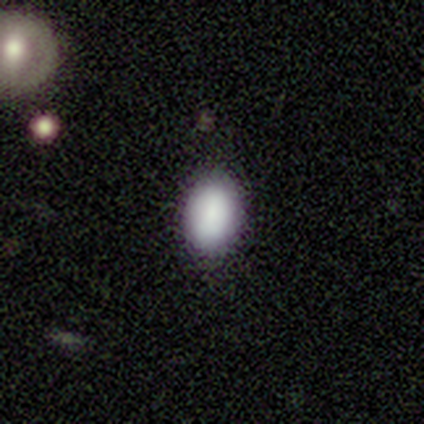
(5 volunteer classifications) smooth-or-featured: smooth: 60% | featured or disk: 20% | star or artifact: 20%
  how-rounded: in between: 100% | round: 0% | cigar-shaped: 0%
  merging: none: 100% | minor disturbance: 0% | major disturbance: 0% | merger: 0%